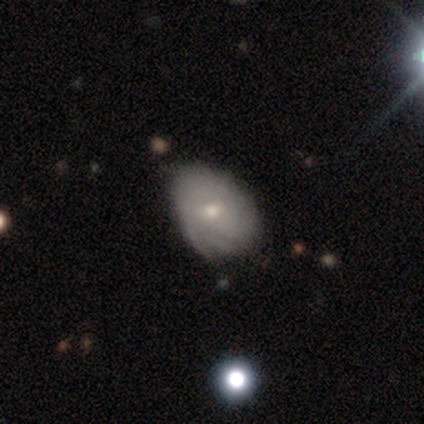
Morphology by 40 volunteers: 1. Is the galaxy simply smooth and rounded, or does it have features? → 72% featured or disk, 20% smooth, 8% star or artifact.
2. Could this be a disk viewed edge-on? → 97% no, 3% yes.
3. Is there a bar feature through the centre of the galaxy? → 75% no, 21% weak, 4% strong.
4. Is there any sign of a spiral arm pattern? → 75% yes, 25% no.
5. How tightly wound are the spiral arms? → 71% tight, 19% medium, 10% loose.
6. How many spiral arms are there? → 52% can't tell, 24% more than 4, 14% 2, 5% 1, 5% 3, 0% 4.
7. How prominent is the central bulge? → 64% small, 32% moderate, 4% none, 0% dominant, 0% large.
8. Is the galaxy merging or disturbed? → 57% none, 41% minor disturbance, 3% merger, 0% major disturbance.